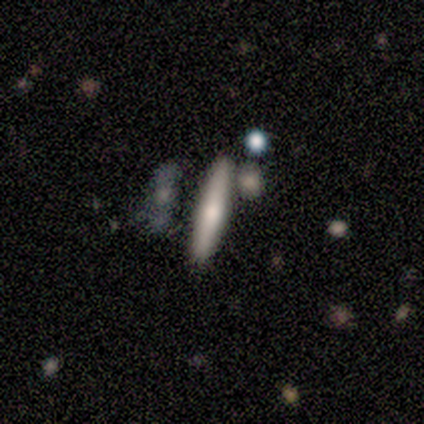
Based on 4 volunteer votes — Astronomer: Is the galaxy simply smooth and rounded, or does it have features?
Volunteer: smooth — 50%, tied with featured or disk at 50%.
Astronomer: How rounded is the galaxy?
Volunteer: cigar-shaped — 100%.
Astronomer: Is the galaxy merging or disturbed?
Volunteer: none — 75%.